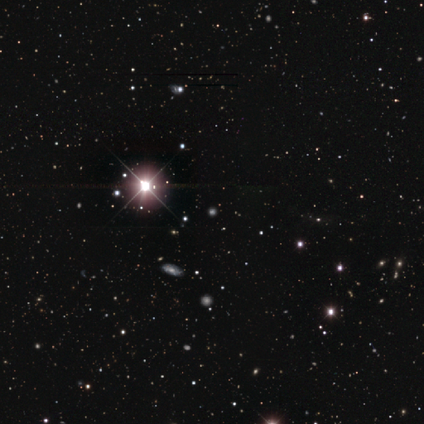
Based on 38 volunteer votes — Morphology: type=star or artifact (89%).